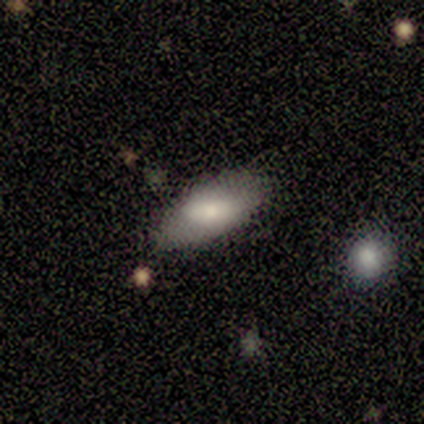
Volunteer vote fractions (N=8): This is likely a smooth galaxy (62%). How rounded: clearly in between (100%). Merging: possibly none (50%, tied with minor disturbance).